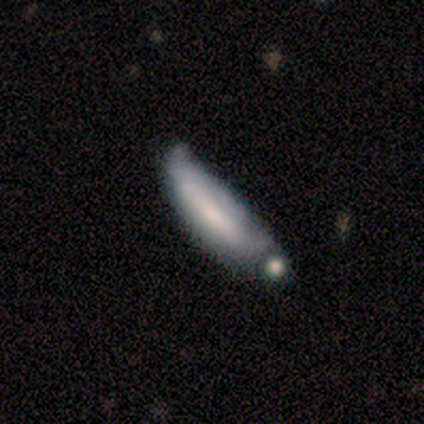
smooth 60%, featured or disk 40%, star or artifact 0%. Down the decision tree: how rounded — cigar-shaped (67%); merging — major disturbance (60%).